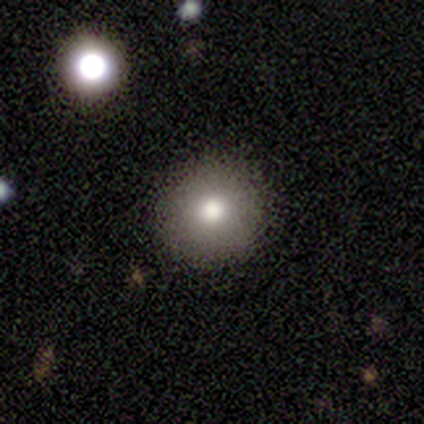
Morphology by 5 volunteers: Volunteers were most divided on "smooth or featured": smooth: 60%, featured or disk: 20%, star or artifact: 20%. More confident: how rounded — round (100%); merging — none (100%).